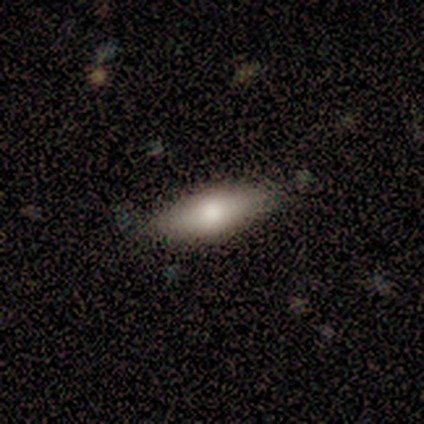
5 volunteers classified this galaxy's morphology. Q: Smooth or featured?
A: featured or disk (80%); runner-up: smooth (20%)
Q: Edge-on disk?
A: no (75%); runner-up: yes (25%)
Q: Bar?
A: no (100%)
Q: Spiral arms?
A: no (100%)
Q: Bulge size?
A: moderate (67%); runner-up: large (33%)
Q: Merging?
A: none (100%)